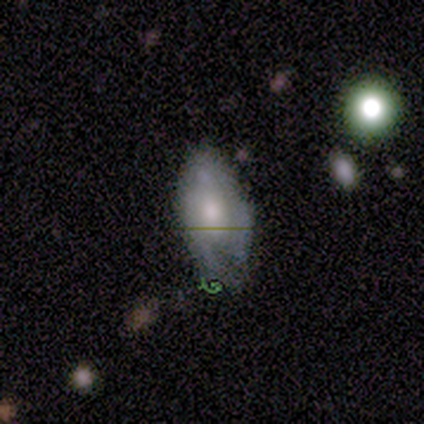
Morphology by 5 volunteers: Smooth or featured: featured or disk — 60% (smooth — 40%)
Edge-on disk: no — 67% (yes — 33%)
Bar: no — 100%
Spiral arms: no — 100%
Bulge size: dominant — 50% (tied with moderate — 50%)
Merging: none — 40% (tied with minor disturbance — 40%)